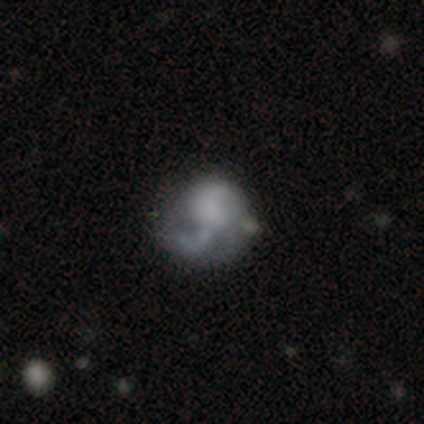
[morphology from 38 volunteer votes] Smooth or featured? featured or disk (47%)
Edge-on disk? no (94%)
Bar? no (76%)
Spiral arms? no (53%)
Bulge size? none (59%)
Merging? none (30%)